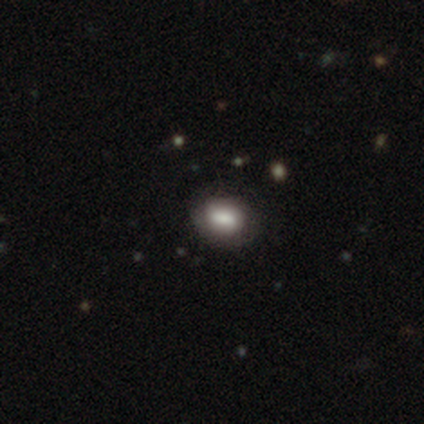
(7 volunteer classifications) smooth-or-featured: smooth: 100% | featured or disk: 0% | star or artifact: 0%
  how-rounded: in between: 100% | round: 0% | cigar-shaped: 0%
  merging: none: 57% | minor disturbance: 29% | major disturbance: 14% | merger: 0%